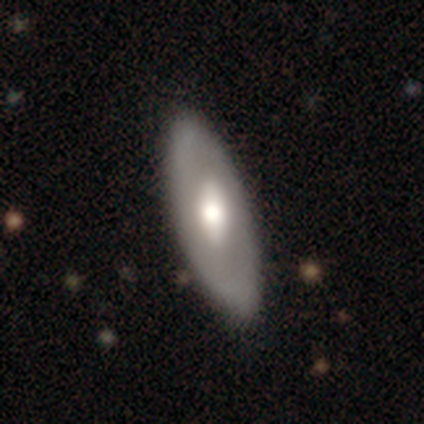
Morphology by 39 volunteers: Smooth or featured?
  - featured or disk: 59% *
  - smooth: 33%
  - star or artifact: 8%
Edge-on disk?
  - no: 70% *
  - yes: 30%
Bar?
  - weak: 44% *
  - no: 38%
  - strong: 19%
Spiral arms?
  - no: 88% *
  - yes: 12%
Bulge size?
  - moderate: 75% *
  - large: 25%
  - dominant: 0%
  - small: 0%
  - none: 0%
Merging?
  - none: 92% *
  - minor disturbance: 6%
  - major disturbance: 3%
  - merger: 0%